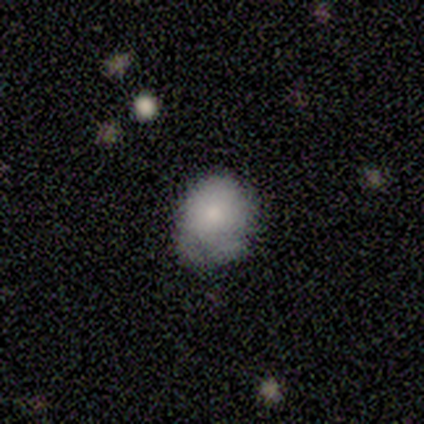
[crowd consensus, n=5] A smooth galaxy with no disk features (100%) that is round (60%).

Vote fractions:
- Smooth or featured? smooth: 100% / featured or disk: 0% / star or artifact: 0%
- How rounded? round: 60% / in between: 40% / cigar-shaped: 0%
- Merging? minor disturbance: 40% (tied) / major disturbance: 40% (tied) / none: 20% / merger: 0%